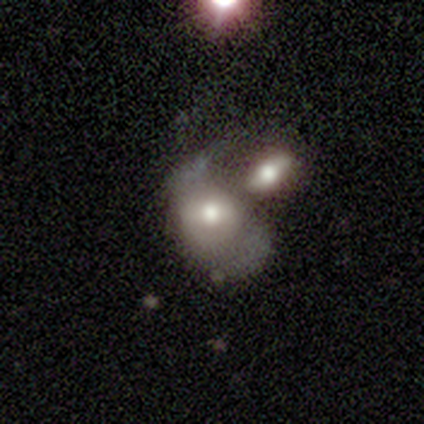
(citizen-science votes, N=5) Morphology: type=featured or disk (60%); edge-on=no (100%); bar=no (67%); spiral arms=no (67%); bulge=dominant (33%, tied with large and small); merging=merger (100%).